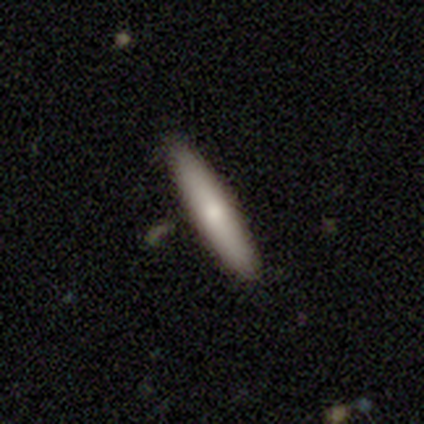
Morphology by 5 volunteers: Smooth or featured? 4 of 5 (80%) said featured or disk. Edge-on disk? 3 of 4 (75%) said yes. Edge-on bulge? 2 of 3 (67%) said none. Merging? 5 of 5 (100%) said none.